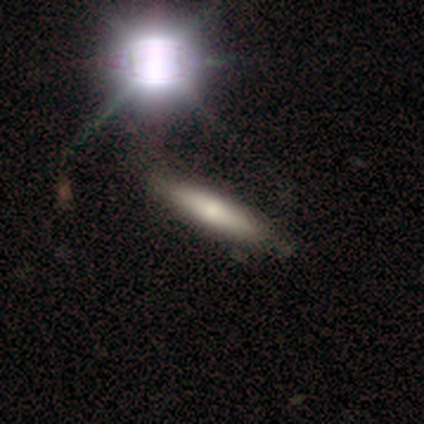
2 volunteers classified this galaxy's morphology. Smooth or featured: smooth — 50% (tied with featured or disk — 50%)
How rounded: cigar-shaped — 100%
Merging: none — 100%